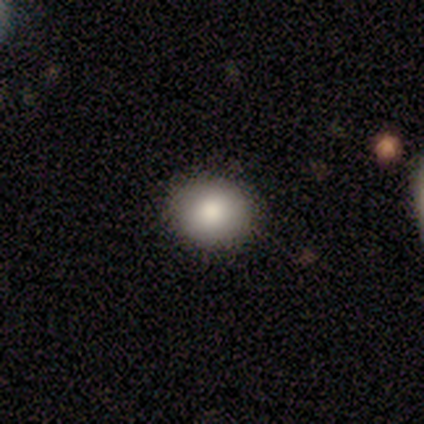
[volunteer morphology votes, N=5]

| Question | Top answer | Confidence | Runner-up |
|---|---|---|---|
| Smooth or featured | smooth | 100% | — |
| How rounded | round | 80% | in between (20%) |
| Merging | none | 100% | — |